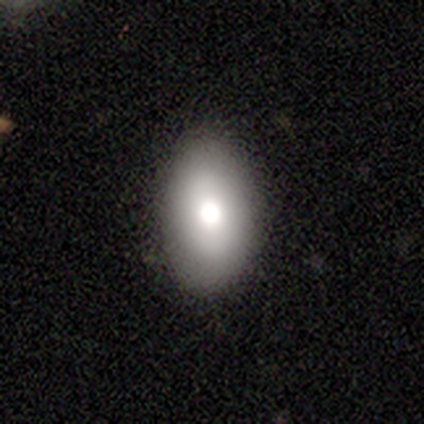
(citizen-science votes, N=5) This appears to be a smooth galaxy with no disk features (40%, tied with featured or disk) that is in between round and cigar-shaped (100%). Merging: none (100%).